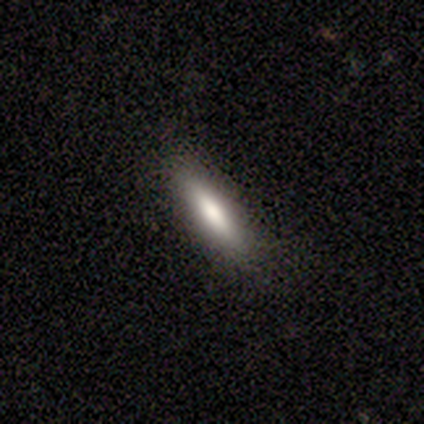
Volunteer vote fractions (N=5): A smooth galaxy with no disk features (80%) that is cigar-shaped (75%). Merging: none (75%).